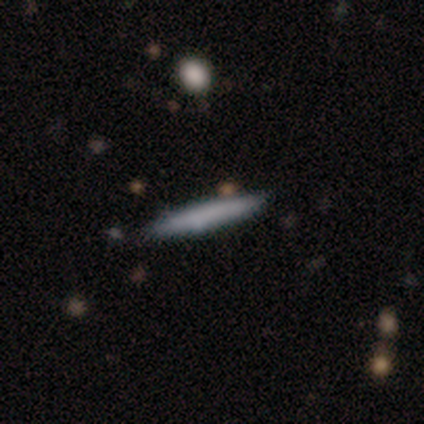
Smooth or featured? 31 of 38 (82%) said smooth. How rounded? 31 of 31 (100%) said cigar-shaped. Merging? 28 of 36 (78%) said none.